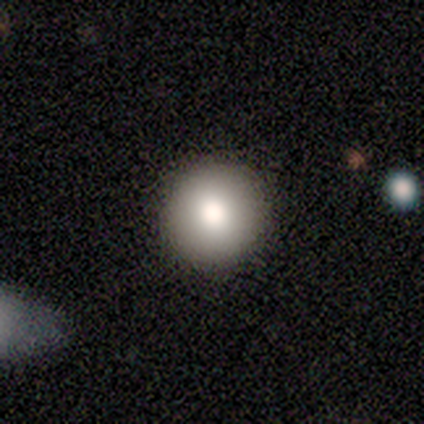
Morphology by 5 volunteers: Smooth or featured: smooth — 80% (featured or disk — 20%)
How rounded: round — 100%
Merging: none — 100%